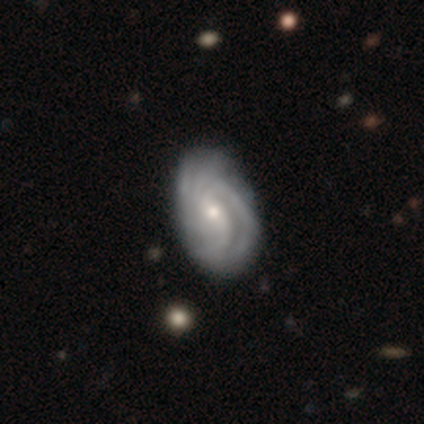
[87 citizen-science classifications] This is clearly a featured or disk galaxy (87%). It is clearly not viewed edge-on (100%). Bar: possibly no (49%). Spiral arm pattern: clearly yes (93%). Spiral arm count: possibly can't tell (45%). Spiral winding: likely tight (65%). Central bulge: likely small (74%). Merging: clearly none (80%).